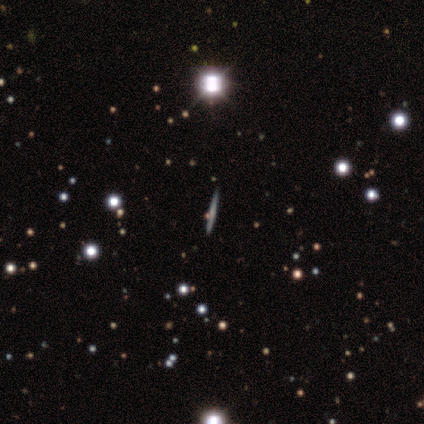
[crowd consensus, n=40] smooth 55%, featured or disk 28%, star or artifact 18%. Down the decision tree: how rounded — cigar-shaped (95%); merging — none (88%).